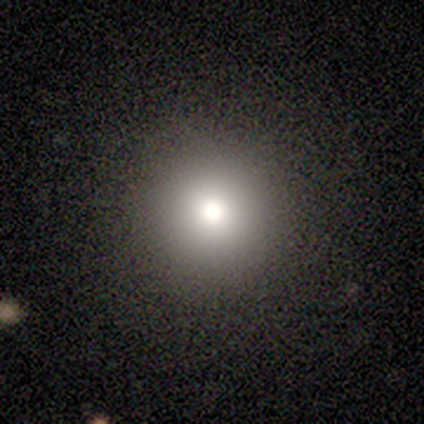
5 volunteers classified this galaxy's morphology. Smooth or featured?
  - smooth: 80% *
  - star or artifact: 20%
  - featured or disk: 0%
How rounded?
  - round: 100% *
  - in between: 0%
  - cigar-shaped: 0%
Merging?
  - none: 100% *
  - minor disturbance: 0%
  - major disturbance: 0%
  - merger: 0%